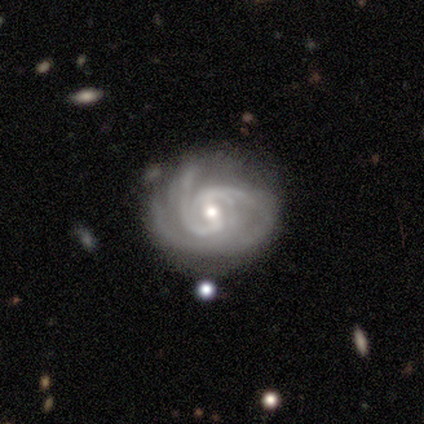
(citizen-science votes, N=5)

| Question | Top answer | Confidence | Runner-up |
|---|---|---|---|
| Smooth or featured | featured or disk | 100% | — |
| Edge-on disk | no | 100% | — |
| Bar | no | 60% | weak (40%) |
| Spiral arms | yes | 100% | — |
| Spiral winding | tight | 80% | medium (20%) |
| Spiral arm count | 2 | 40% | 3 (20%) |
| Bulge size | moderate | 80% | small (20%) |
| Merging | none | 80% | minor disturbance (20%) |